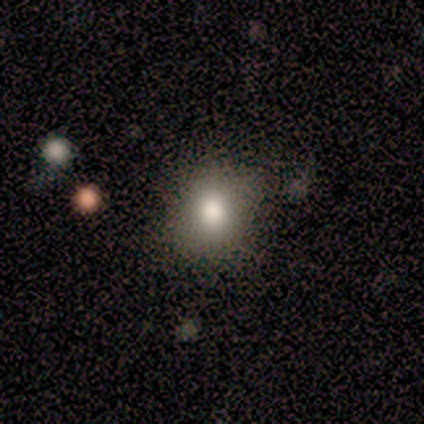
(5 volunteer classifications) Smooth or featured? smooth (80%)
How rounded? round (50%, tied with in between)
Merging? none (75%)